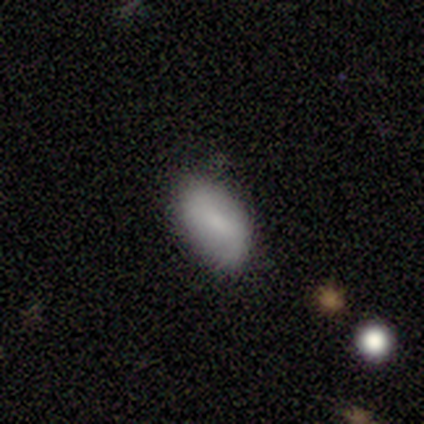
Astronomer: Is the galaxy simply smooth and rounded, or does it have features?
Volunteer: smooth — 71%.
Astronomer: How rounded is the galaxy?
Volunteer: in between — 100%.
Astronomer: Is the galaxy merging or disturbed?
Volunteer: none — 71%.